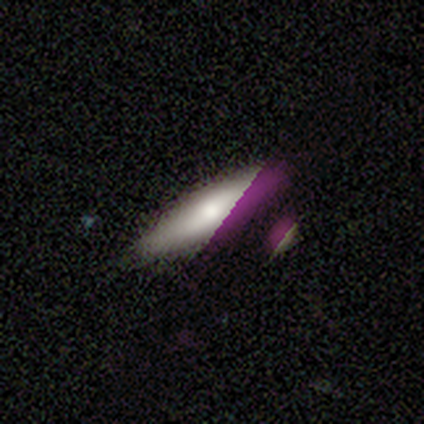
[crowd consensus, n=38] Volunteers were most divided on "how rounded": cigar-shaped: 55%, in between: 45%, round: 0%. More confident: merging — none (58%); smooth or featured — smooth (58%).